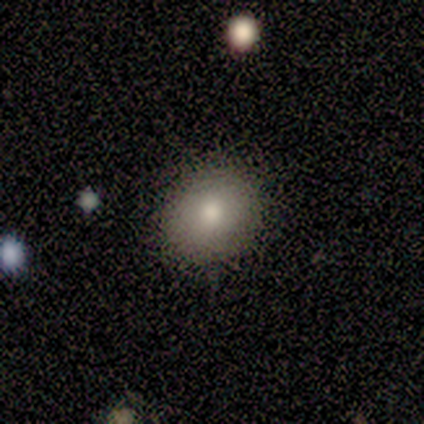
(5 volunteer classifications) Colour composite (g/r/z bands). It shows a smooth galaxy with no disk features (80%) that is in between round and cigar-shaped (75%). Merging: none (75%).